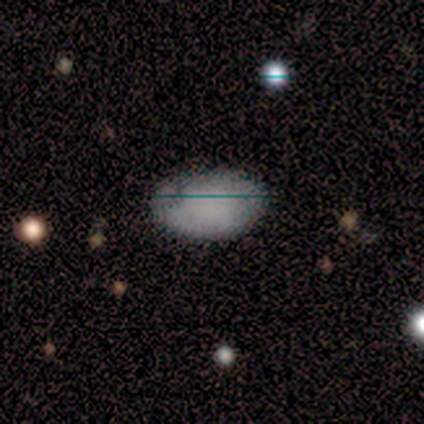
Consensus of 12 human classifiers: A smooth galaxy with no disk features (83%) that is in between round and cigar-shaped (100%).

Vote fractions:
- Smooth or featured? smooth: 83% / featured or disk: 8% / star or artifact: 8%
- How rounded? in between: 100% / round: 0% / cigar-shaped: 0%
- Merging? none: 91% / minor disturbance: 9% / major disturbance: 0% / merger: 0%